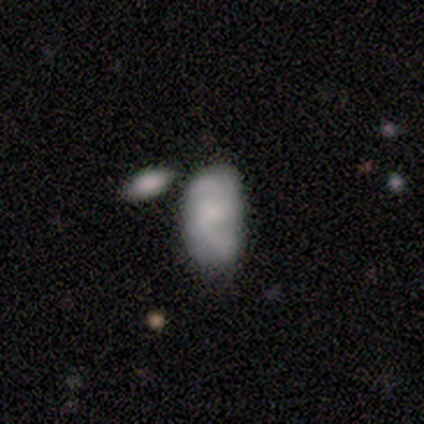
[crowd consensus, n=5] Morphology: type=featured or disk (60%); edge-on=no (100%); bar=weak (100%); spiral arms=no (67%); bulge=moderate (33%, tied with small and none); merging=none (60%).